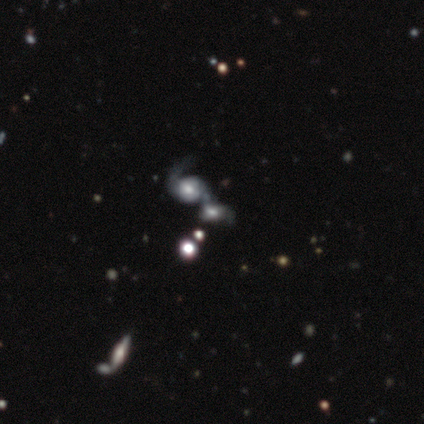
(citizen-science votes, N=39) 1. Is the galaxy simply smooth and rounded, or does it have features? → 74% featured or disk, 18% smooth, 8% star or artifact.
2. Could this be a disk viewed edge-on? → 100% no, 0% yes.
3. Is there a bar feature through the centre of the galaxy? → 66% no, 31% weak, 3% strong.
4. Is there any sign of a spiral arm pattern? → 76% yes, 24% no.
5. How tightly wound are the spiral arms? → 55% loose, 36% medium, 9% tight.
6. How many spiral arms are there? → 64% 2, 18% 1, 18% can't tell, 0% 3, 0% 4, 0% more than 4.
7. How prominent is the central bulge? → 48% moderate, 31% large, 10% small, 7% none, 3% dominant.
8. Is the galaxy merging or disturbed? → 67% merger, 6% none, 6% major disturbance, 0% minor disturbance.